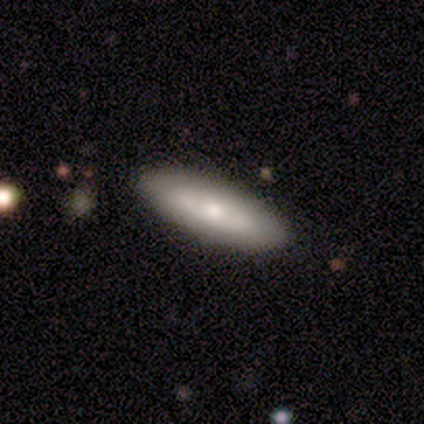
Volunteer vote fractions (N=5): Smooth or featured? featured or disk (60%)
Edge-on disk? no (100%)
Bar? no (100%)
Spiral arms? no (100%)
Bulge size? small (67%)
Merging? none (100%)